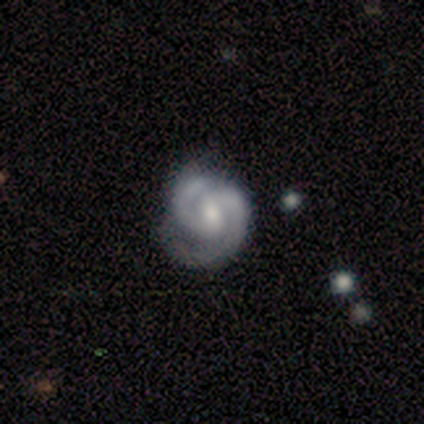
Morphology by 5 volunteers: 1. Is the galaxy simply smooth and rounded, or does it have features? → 80% featured or disk, 20% smooth, 0% star or artifact.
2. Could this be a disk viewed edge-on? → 100% no, 0% yes.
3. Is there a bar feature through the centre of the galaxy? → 50% weak (tied), 50% no (tied), 0% strong.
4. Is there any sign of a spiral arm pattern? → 100% yes, 0% no.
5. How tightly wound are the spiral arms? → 75% medium, 25% tight, 0% loose.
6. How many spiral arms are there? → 75% 2, 25% 3, 0% 1, 0% 4, 0% more than 4, 0% can't tell.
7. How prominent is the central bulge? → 50% small, 25% moderate, 25% none, 0% dominant, 0% large.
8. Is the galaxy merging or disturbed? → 60% none, 40% minor disturbance, 0% major disturbance, 0% merger.